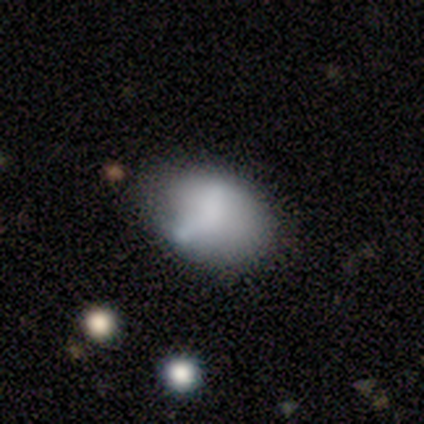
A smooth galaxy with no disk features (71%) that is in between round and cigar-shaped (90%). Merging: none (59%).